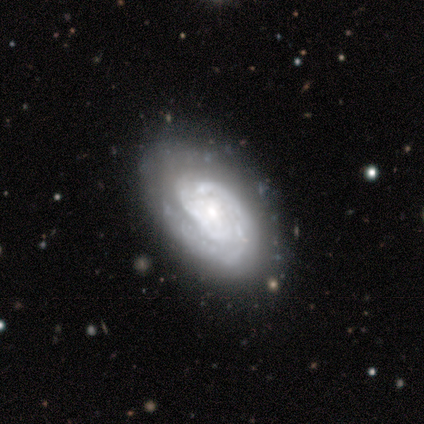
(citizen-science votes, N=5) featured or disk 80%, smooth 20%, star or artifact 0%. Down the decision tree: edge-on disk — no (100%); bar — no (100%); spiral arms — yes (100%); spiral arm count — can't tell (75%); spiral winding — tight (100%); bulge size — small (50%); merging — none (100%).